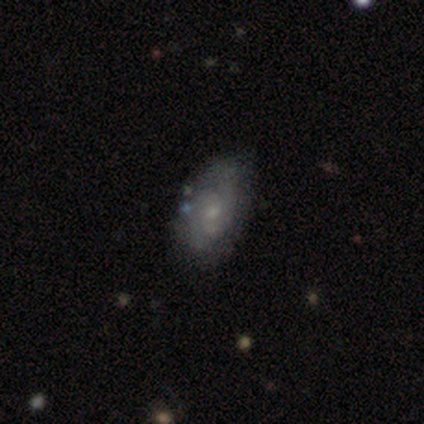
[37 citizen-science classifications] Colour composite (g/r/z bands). It shows a featured or disk galaxy (65%) with a weak bar (50%), 2 (68%) medium (58%) spiral arms (79%) and a small central bulge (58%). Merging: none (76%).